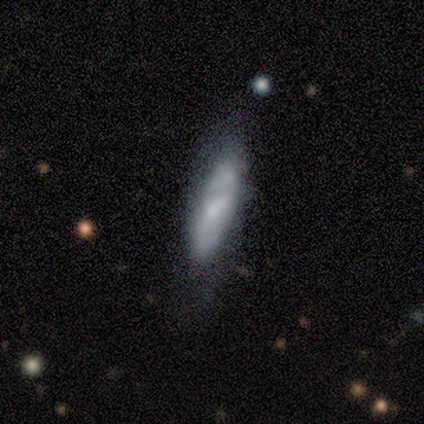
Morphology: type=smooth (60%); roundness=cigar-shaped (67%); merging=none (75%).